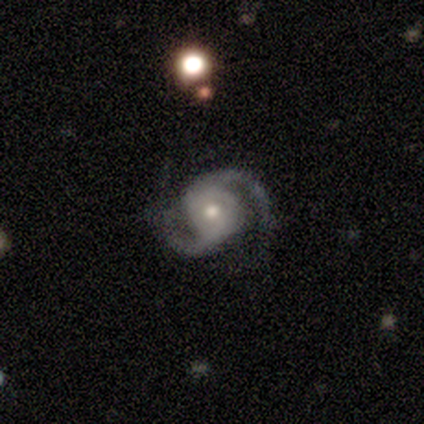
Morphology: type=featured or disk (100%); edge-on=no (100%); bar=no (100%); spiral arms=yes (100%); winding=loose (100%); arm count=2 (100%); bulge=moderate (100%); merging=minor disturbance (100%).